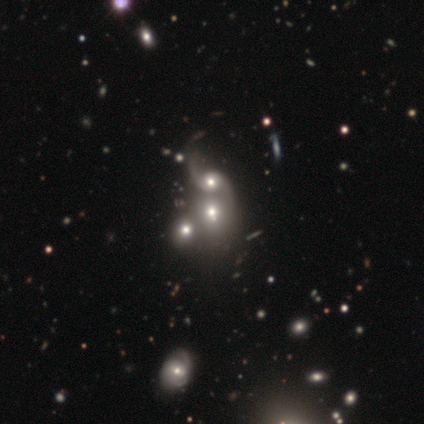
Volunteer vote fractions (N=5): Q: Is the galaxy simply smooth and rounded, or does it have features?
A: featured or disk — 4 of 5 (80%).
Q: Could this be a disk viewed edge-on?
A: no — 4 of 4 (100%).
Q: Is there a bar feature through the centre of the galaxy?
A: no — 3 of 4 (75%).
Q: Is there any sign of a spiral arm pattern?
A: yes — 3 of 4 (75%).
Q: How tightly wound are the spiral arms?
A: loose — 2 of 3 (67%).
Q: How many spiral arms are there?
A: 2 — 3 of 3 (100%).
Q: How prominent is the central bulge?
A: moderate — 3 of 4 (75%).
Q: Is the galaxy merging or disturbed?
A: merger — 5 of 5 (100%).